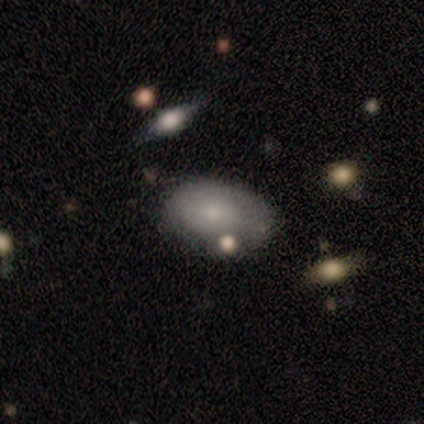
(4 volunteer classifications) Morphology: type=smooth (75%); roundness=in between (100%); merging=none (75%).